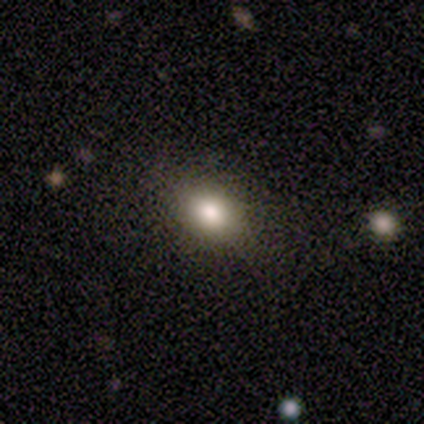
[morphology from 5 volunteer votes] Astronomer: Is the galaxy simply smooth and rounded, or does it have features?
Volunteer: smooth — 80%.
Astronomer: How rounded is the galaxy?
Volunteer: in between — 75%.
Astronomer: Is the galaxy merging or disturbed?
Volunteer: none — 100%.